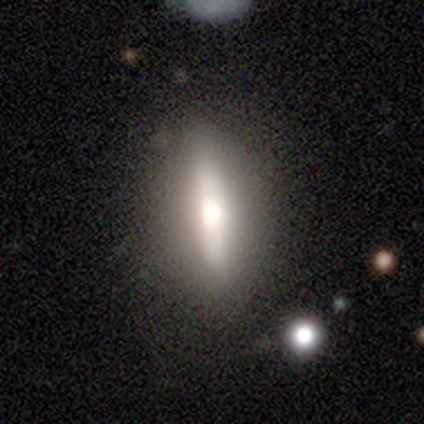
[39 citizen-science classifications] smooth_or_featured: featured or disk (p=0.51) [alt: smooth p=0.46]
disk_edge_on: yes (p=0.90) [alt: no p=0.10]
edge_on_bulge: rounded (p=0.89) [alt: none p=0.11]
merging: none (p=0.84) [alt: minor disturbance p=0.08]